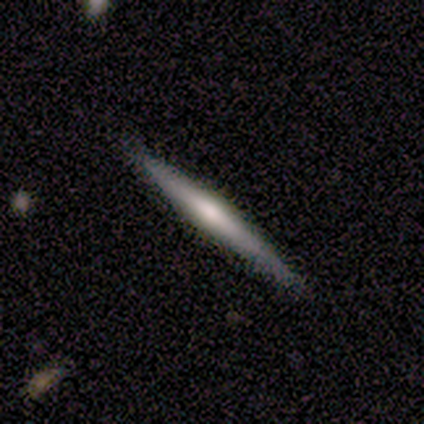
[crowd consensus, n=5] Smooth or featured?
  - featured or disk: 100% *
  - smooth: 0%
  - star or artifact: 0%
Edge-on disk?
  - yes: 100% *
  - no: 0%
Edge-on bulge?
  - rounded: 60% *
  - boxy: 20%
  - none: 20%
Merging?
  - none: 80% *
  - minor disturbance: 20%
  - major disturbance: 0%
  - merger: 0%